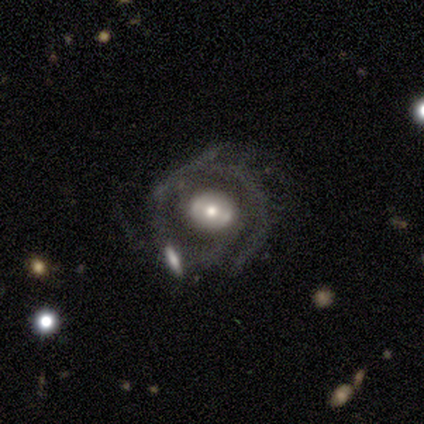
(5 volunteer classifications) smooth-or-featured: featured or disk: 80% | star or artifact: 20% | smooth: 0%
  disk-edge-on: no: 100% | yes: 0%
    bar: strong: 75% | no: 25% | weak: 0%
    has-spiral-arms: yes: 50% (tied) | no: 50% (tied)
      spiral-winding: medium: 50% (tied) | loose: 50% (tied) | tight: 0%
      spiral-arm-count: 1: 50% (tied) | 2: 50% (tied) | 3: 0% | 4: 0% | more than 4: 0% | can't tell: 0%
    bulge-size: moderate: 75% | small: 25% | dominant: 0% | large: 0% | none: 0%
  merging: none: 25% (tied) | minor disturbance: 25% (tied) | major disturbance: 25% (tied) | merger: 25% (tied)